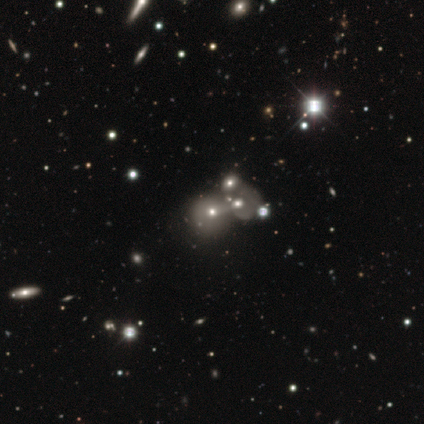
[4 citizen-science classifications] Q: Smooth or featured?
A: featured or disk (50%); tied with: star or artifact (50%)
Q: Edge-on disk?
A: yes (50%); tied with: no (50%)
Q: Edge-on bulge?
A: none (100%)
Q: Merging?
A: merger (100%)